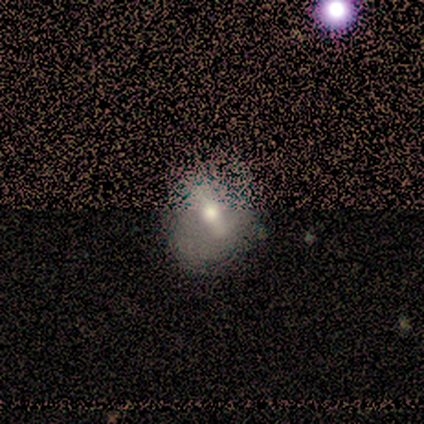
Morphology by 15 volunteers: Volunteers were most divided on "smooth or featured": smooth: 53%, featured or disk: 33%, star or artifact: 13%. More confident: how rounded — round (62%); merging — none (62%).